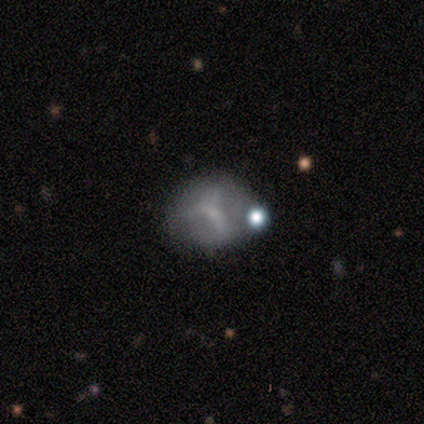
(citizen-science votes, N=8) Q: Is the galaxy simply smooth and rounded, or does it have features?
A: star or artifact — 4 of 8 (50%).